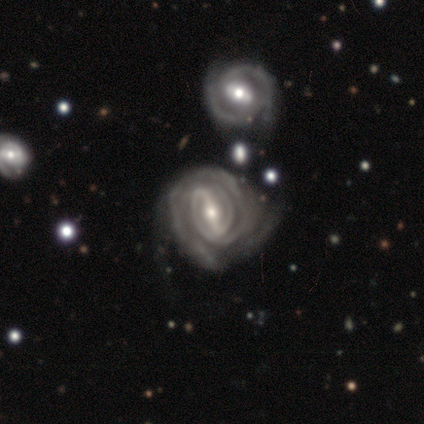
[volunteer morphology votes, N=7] type=featured or disk (100%); edge-on=no (100%); bar=strong (57%); spiral arms=yes (100%); winding=tight (100%); arm count=can't tell (57%); bulge=small (71%); merging=none (71%).